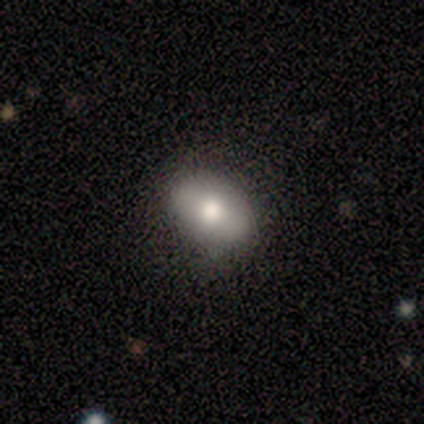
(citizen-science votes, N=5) This appears to be a smooth galaxy with no disk features (100%) that is in between round and cigar-shaped (100%). Merging: none (80%).